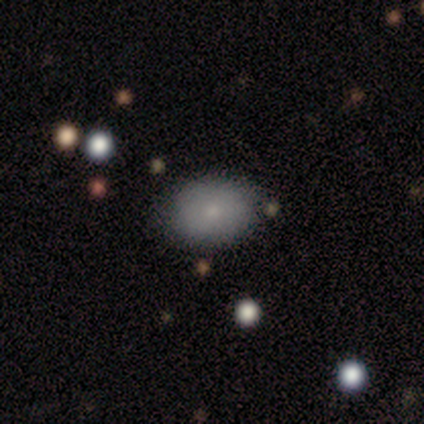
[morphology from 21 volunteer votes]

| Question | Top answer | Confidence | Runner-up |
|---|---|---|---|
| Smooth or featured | smooth | 71% | featured or disk (29%) |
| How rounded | in between | 73% | round (27%) |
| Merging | none | 90% | minor disturbance (10%) |